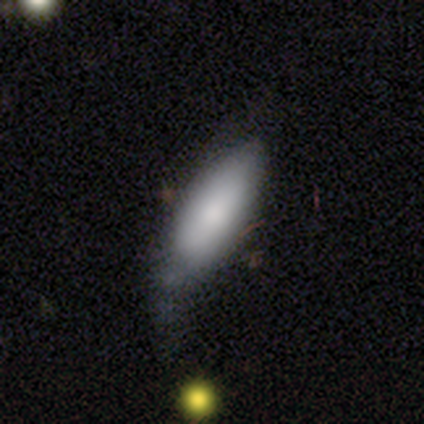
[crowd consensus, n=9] A smooth galaxy with no disk features (89%) that is in between round and cigar-shaped (50%, tied with cigar-shaped). Merging: minor disturbance (56%).